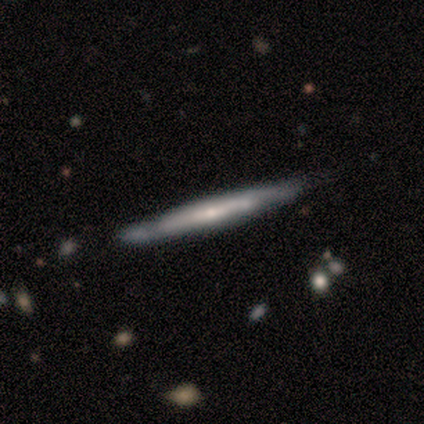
Smooth or featured? 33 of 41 (80%) said featured or disk. Edge-on disk? 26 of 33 (79%) said yes. Edge-on bulge? 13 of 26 (50%) said none. Merging? 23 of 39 (59%) said none.